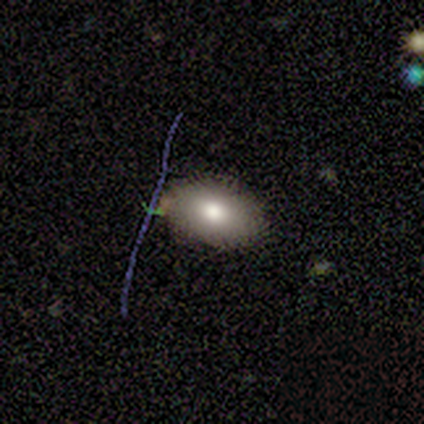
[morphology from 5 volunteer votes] A smooth galaxy with no disk features (60%) that is in between round and cigar-shaped (100%). Merging: none (75%).